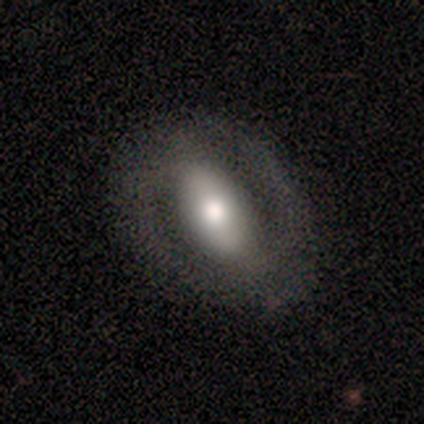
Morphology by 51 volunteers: This appears to be a featured or disk galaxy (61%) with a strong bar (55%), 2 (88%) medium (44%) spiral arms (52%) and a moderate central bulge (48%). Merging: none (75%).